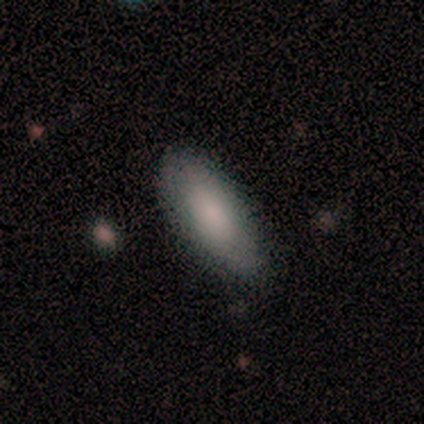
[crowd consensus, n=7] This appears to be a smooth galaxy with no disk features (100%) that is cigar-shaped (57%). Merging: none (71%).